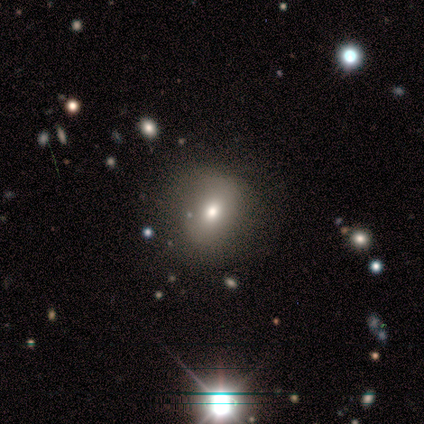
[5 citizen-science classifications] A smooth galaxy with no disk features (40%, tied with featured or disk) that is in between round and cigar-shaped (100%).

Vote fractions:
- Smooth or featured? smooth: 40% (tied) / featured or disk: 40% (tied) / star or artifact: 20%
- How rounded? in between: 100% / round: 0% / cigar-shaped: 0%
- Merging? none: 50% / minor disturbance: 25% / merger: 25% / major disturbance: 0%